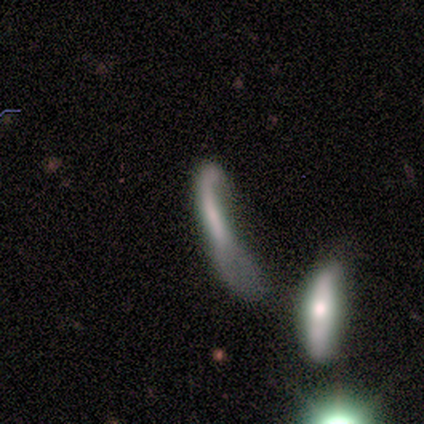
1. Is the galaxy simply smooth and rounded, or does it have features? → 80% featured or disk, 20% smooth, 0% star or artifact.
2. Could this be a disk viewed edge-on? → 75% no, 25% yes.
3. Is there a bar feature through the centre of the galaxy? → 67% no, 33% strong, 0% weak.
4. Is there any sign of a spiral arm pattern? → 67% no, 33% yes.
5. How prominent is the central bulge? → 100% none, 0% dominant, 0% large, 0% moderate, 0% small.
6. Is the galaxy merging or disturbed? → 40% none (tied), 40% major disturbance (tied), 20% minor disturbance, 0% merger.